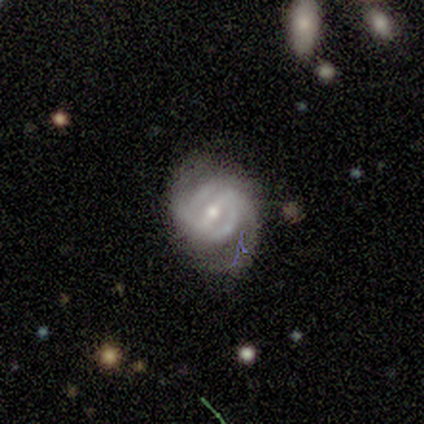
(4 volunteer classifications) Smooth or featured? 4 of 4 (100%) said featured or disk. Edge-on disk? 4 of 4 (100%) said no. Bar? 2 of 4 (50%) said weak. Spiral arms? 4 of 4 (100%) said yes. Spiral winding? 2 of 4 (50%, tied with loose) said tight. Spiral arm count? 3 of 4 (75%) said 2. Bulge size? 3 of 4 (75%) said moderate. Merging? 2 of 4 (50%, tied with minor disturbance) said none.